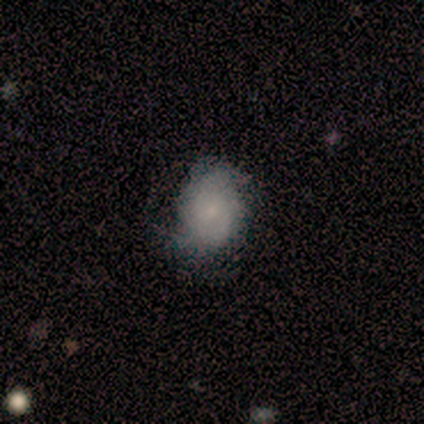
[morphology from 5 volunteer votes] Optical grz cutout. It shows a smooth galaxy with no disk features (60%) that is round (67%). Merging: none (60%).